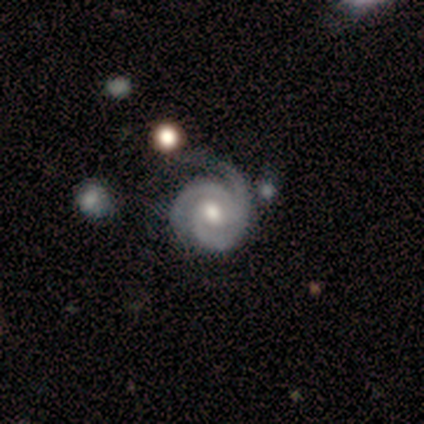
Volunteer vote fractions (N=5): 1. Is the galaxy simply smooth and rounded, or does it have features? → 100% featured or disk, 0% smooth, 0% star or artifact.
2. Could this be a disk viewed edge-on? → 100% no, 0% yes.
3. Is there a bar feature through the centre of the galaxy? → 60% no, 20% strong, 20% weak.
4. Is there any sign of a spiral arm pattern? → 100% yes, 0% no.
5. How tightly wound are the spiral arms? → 60% tight, 40% medium, 0% loose.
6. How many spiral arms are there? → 80% 3, 20% 1, 0% 2, 0% 4, 0% more than 4, 0% can't tell.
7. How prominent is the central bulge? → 60% moderate, 20% small, 20% none, 0% dominant, 0% large.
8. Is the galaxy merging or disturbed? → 60% none, 20% minor disturbance, 20% merger, 0% major disturbance.